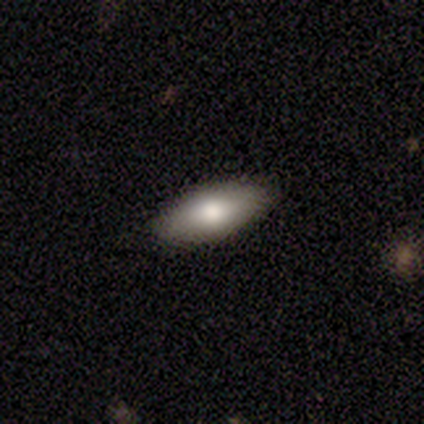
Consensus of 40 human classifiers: Morphology: type=smooth (82%); roundness=in between (82%); merging=none (82%).